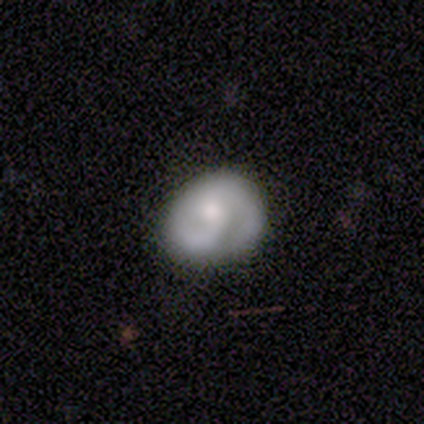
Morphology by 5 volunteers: This appears to be a featured or disk galaxy (80%) with no bar (75%), 1 (50%, tied with 2) tight (75%) spiral arms (100%) and a moderate central bulge (75%). Merging: none (60%).